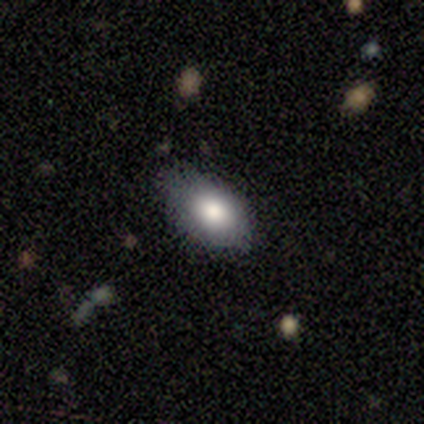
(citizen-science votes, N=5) Volunteers were most divided on "merging": none: 60%, minor disturbance: 40%, major disturbance: 0%, merger: 0%. More confident: smooth or featured — smooth (80%); how rounded — in between (75%).